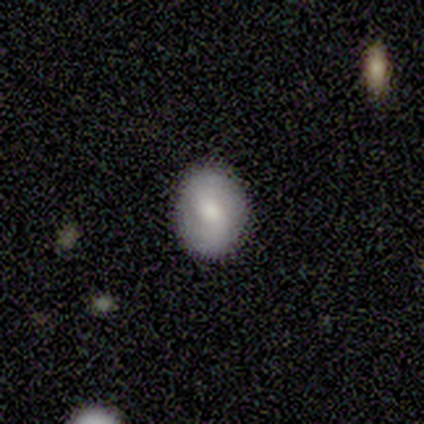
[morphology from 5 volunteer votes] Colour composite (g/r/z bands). It shows a smooth galaxy with no disk features (60%) that is round (67%). Merging: none (80%).